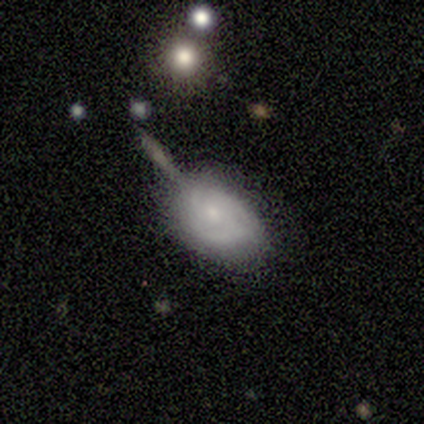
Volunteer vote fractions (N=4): A featured or disk galaxy (75%) with no bar (67%), tight (67%) spiral arms (100%) and a small central bulge (100%). Merging: none (75%).